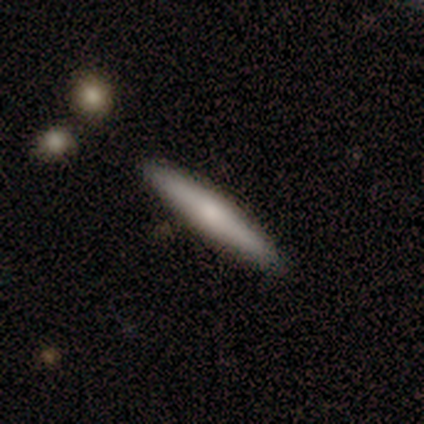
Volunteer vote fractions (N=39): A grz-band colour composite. It shows a smooth galaxy with no disk features (51%) that is cigar-shaped (95%). Merging: none (89%).